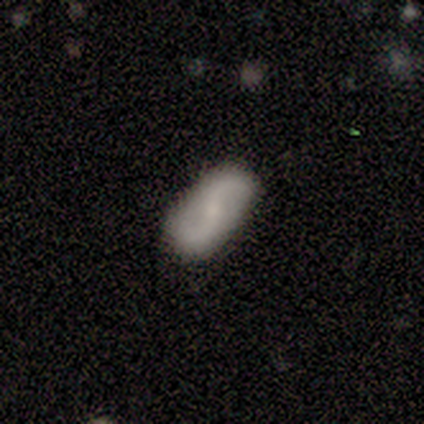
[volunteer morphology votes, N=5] This is marginally a smooth galaxy (40%, tied with featured or disk). How rounded: possibly in between (50%, tied with cigar-shaped). Merging: likely none (75%).